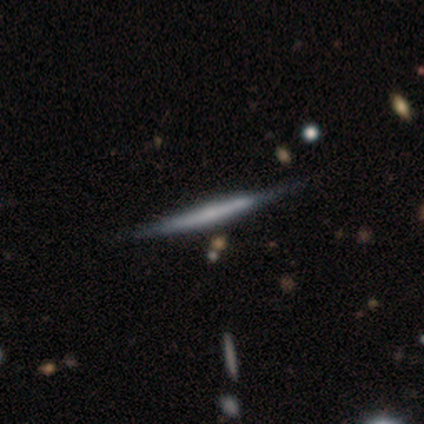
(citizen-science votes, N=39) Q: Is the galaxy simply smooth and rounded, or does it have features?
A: featured or disk — 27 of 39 (69%).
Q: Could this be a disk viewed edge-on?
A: yes — 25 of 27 (93%).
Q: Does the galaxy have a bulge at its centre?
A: none — 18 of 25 (72%).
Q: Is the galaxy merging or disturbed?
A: none — 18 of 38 (47%).